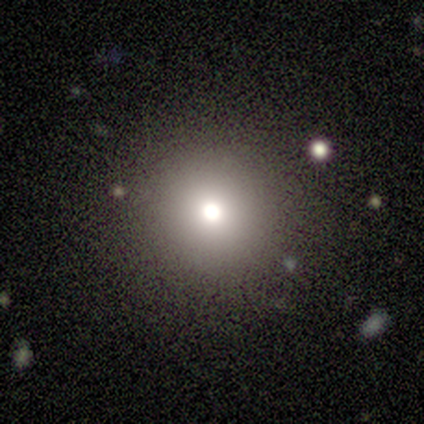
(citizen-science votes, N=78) Volunteers were most divided on "merging": none: 45%, minor disturbance: 4%, merger: 4%, major disturbance: 3%. More confident: how rounded — round (95%); smooth or featured — smooth (79%).